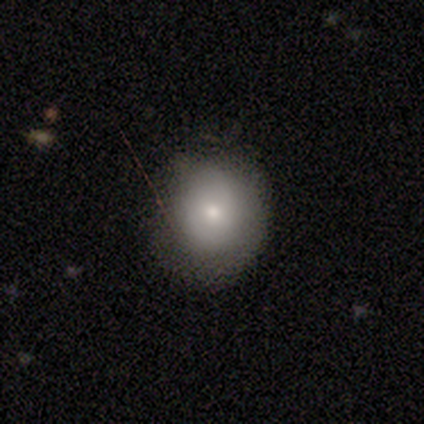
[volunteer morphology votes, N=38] Smooth or featured?
  - smooth: 71% *
  - featured or disk: 24%
  - star or artifact: 5%
How rounded?
  - round: 78% *
  - in between: 22%
  - cigar-shaped: 0%
Merging?
  - none: 86% *
  - minor disturbance: 11%
  - major disturbance: 3%
  - merger: 0%